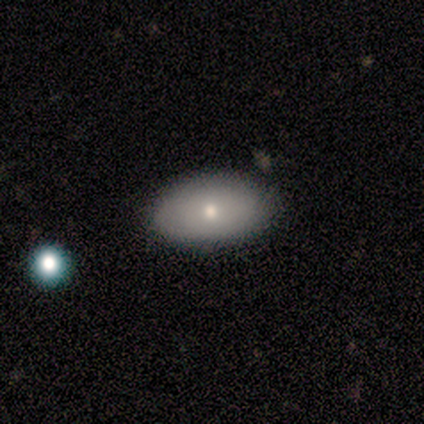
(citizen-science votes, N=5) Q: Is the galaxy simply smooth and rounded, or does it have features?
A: smooth — 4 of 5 (80%).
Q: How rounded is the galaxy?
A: in between — 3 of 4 (75%).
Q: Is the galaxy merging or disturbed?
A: none — 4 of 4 (100%).